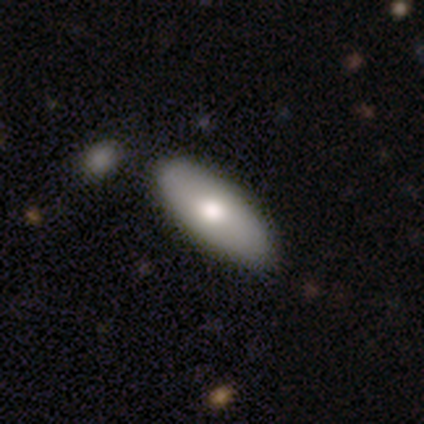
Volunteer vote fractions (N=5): Volunteers were most divided on "smooth or featured": featured or disk: 60%, smooth: 40%, star or artifact: 0%. More confident: edge-on disk — no (100%); bar — no (100%); spiral arms — no (100%); bulge size — moderate (100%); merging — none (100%).